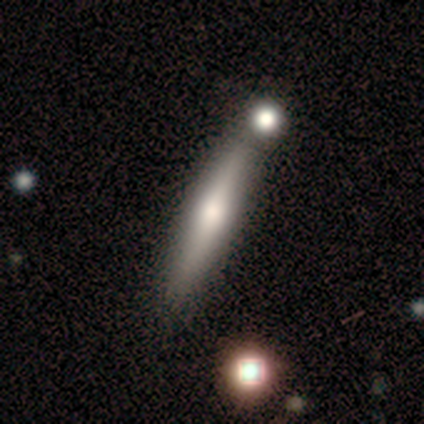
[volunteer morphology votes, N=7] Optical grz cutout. It shows a smooth galaxy with no disk features (71%) that is cigar-shaped (100%). Merging: none (71%).